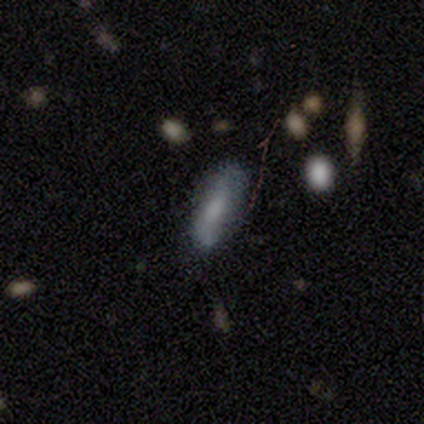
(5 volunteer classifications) Morphology: type=smooth (60%); roundness=in between (67%); merging=none (60%).